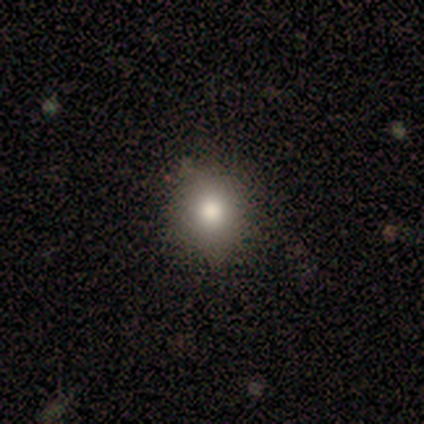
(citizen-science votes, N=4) This appears to be a smooth galaxy with no disk features (75%) that is round (67%). Merging: none (75%).